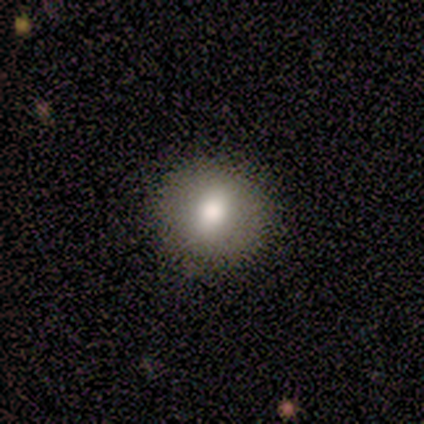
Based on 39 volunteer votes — smooth 77%, featured or disk 18%, star or artifact 5%. Down the decision tree: how rounded — round (80%); merging — none (57%).